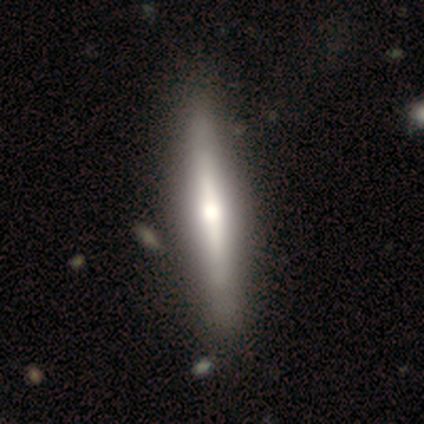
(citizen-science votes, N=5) A featured or disk galaxy (60%) viewed edge-on (100%) with a rounded central bulge (67%). Merging: none (100%).